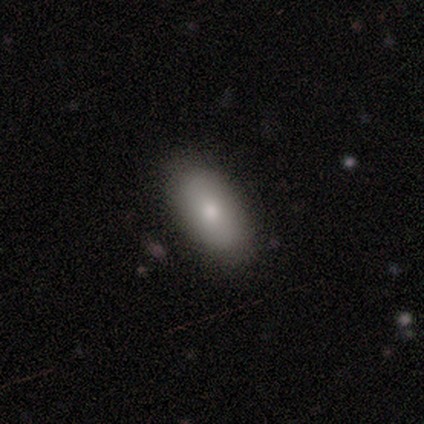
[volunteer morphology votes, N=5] Overall: smooth (100%). How rounded: in between (100%). Merging: none (80%).